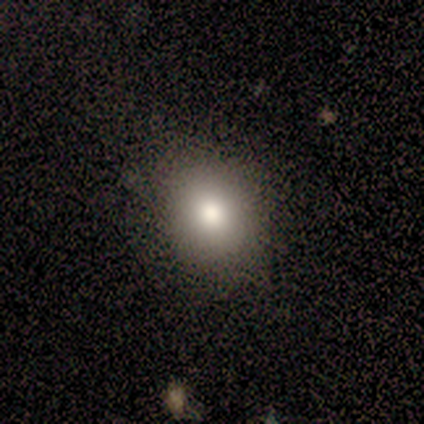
A smooth galaxy with no disk features (80%) that is round (75%). Merging: none (100%).